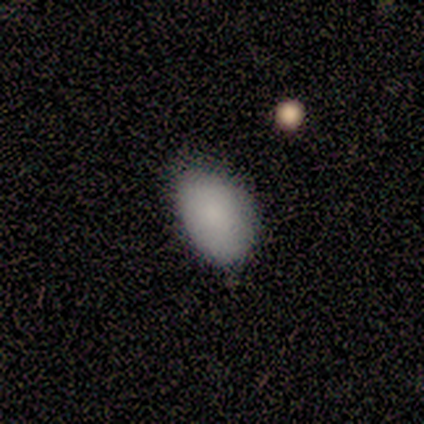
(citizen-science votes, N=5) Smooth or featured? smooth (80%)
How rounded? in between (100%)
Merging? none (80%)